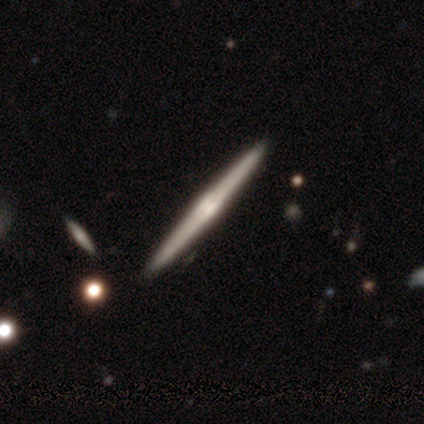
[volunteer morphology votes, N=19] Smooth or featured: featured or disk — 79% (smooth — 16%)
Edge-on disk: yes — 100%
Edge-on bulge: rounded — 60% (boxy — 20%)
Merging: none — 94% (major disturbance — 6%)